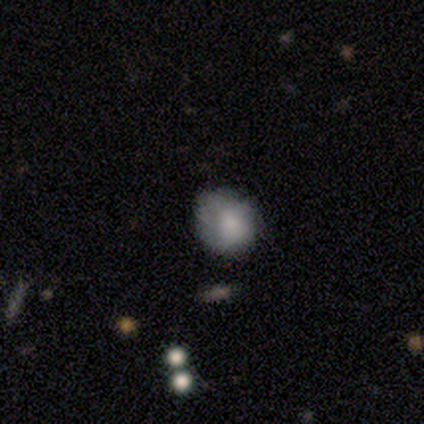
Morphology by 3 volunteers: This is clearly a smooth galaxy (100%). How rounded: likely in between (67%). Merging: likely minor disturbance (67%).